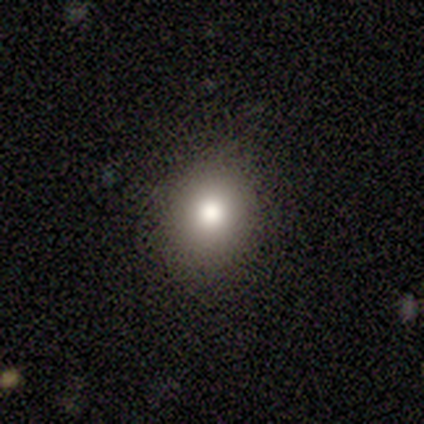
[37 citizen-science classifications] Smooth or featured?
  - smooth: 73% *
  - star or artifact: 19%
  - featured or disk: 8%
How rounded?
  - round: 85% *
  - in between: 15%
  - cigar-shaped: 0%
Merging?
  - none: 87% *
  - minor disturbance: 10%
  - merger: 3%
  - major disturbance: 0%